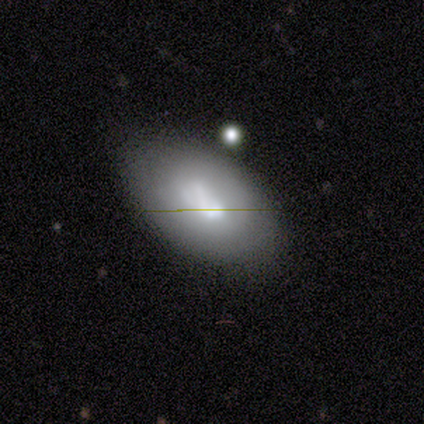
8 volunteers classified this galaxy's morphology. smooth-or-featured: smooth: 50% | featured or disk: 38% | star or artifact: 12%
  how-rounded: in between: 100% | round: 0% | cigar-shaped: 0%
  merging: none: 71% | minor disturbance: 14% | merger: 14% | major disturbance: 0%